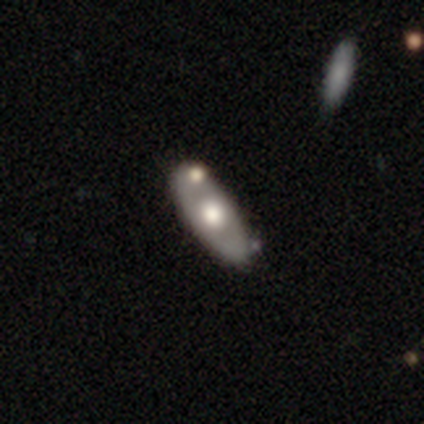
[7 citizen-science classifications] Smooth or featured?
  - featured or disk: 71% *
  - smooth: 29%
  - star or artifact: 0%
Edge-on disk?
  - yes: 60% *
  - no: 40%
Edge-on bulge?
  - rounded: 100% *
  - boxy: 0%
  - none: 0%
Merging?
  - none: 86% *
  - merger: 14%
  - minor disturbance: 0%
  - major disturbance: 0%